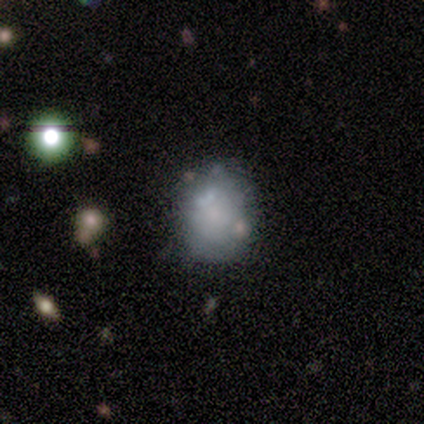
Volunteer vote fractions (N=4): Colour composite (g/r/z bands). It shows a featured or disk galaxy (75%) with no bar (100%), no spiral arms (100%) and a small central bulge (67%). Merging: none (33%, tied with minor disturbance and major disturbance).